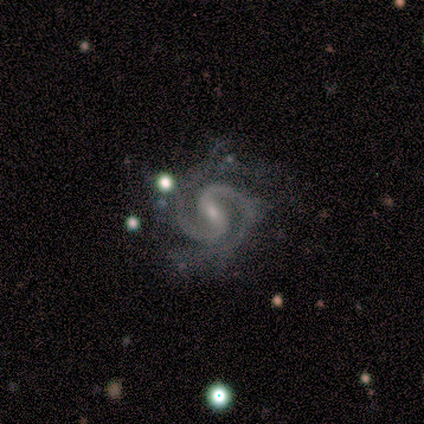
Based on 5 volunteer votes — Smooth or featured? 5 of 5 (100%) said featured or disk. Edge-on disk? 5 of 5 (100%) said no. Bar? 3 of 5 (60%) said weak. Spiral arms? 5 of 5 (100%) said yes. Spiral winding? 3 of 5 (60%) said tight. Spiral arm count? 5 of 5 (100%) said 2. Bulge size? 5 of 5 (100%) said small. Merging? 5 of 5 (100%) said none.